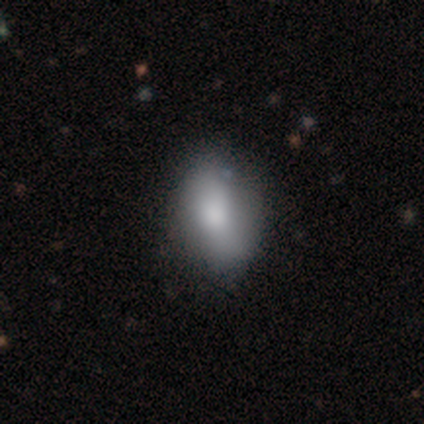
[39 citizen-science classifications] Q: Smooth or featured?
A: smooth (82%); runner-up: featured or disk (10%)
Q: How rounded?
A: in between (84%); runner-up: round (12%)
Q: Merging?
A: none (64%); runner-up: minor disturbance (8%)